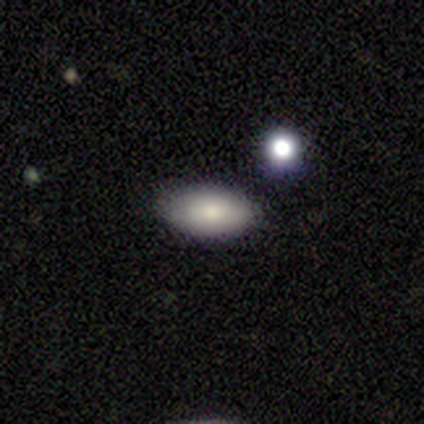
Smooth or featured: smooth — 100%
How rounded: in between — 100%
Merging: none — 100%